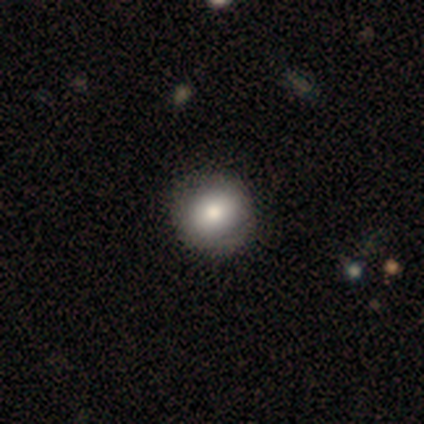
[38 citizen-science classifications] Overall: smooth (87%). How rounded: round (88%). Merging: none (82%).